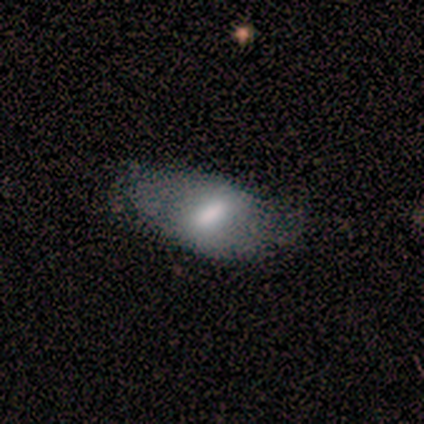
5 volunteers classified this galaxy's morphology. smooth_or_featured: smooth (p=0.60) [alt: featured or disk p=0.40]
how_rounded: in between (p=1.00)
merging: none (p=0.60) [alt: major disturbance p=0.40]